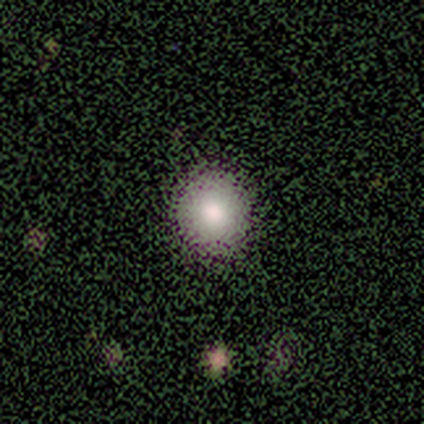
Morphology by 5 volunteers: Overall: smooth (100%). How rounded: round (100%). Merging: none (80%).